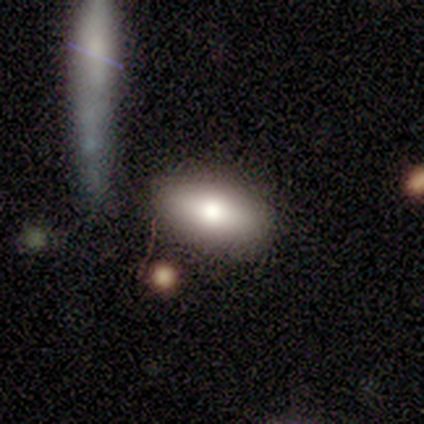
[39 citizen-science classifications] This appears to be a smooth galaxy with no disk features (74%) that is in between round and cigar-shaped (93%). Merging: none (89%).